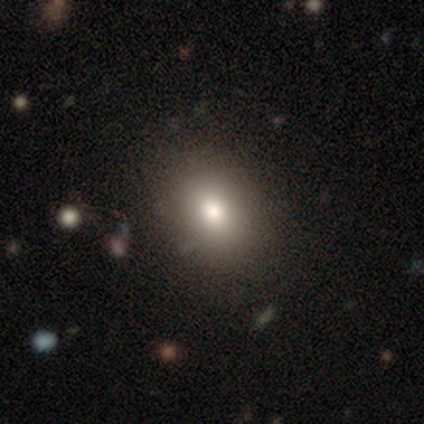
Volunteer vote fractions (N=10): Smooth or featured? smooth (80%)
How rounded? round (62%)
Merging? none (89%)